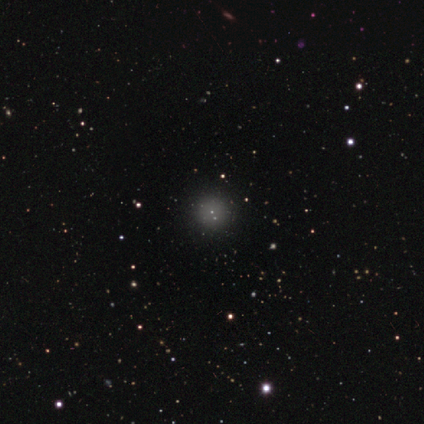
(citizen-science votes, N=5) This is likely a smooth galaxy (60%). How rounded: clearly round (100%). Merging: likely none (67%).